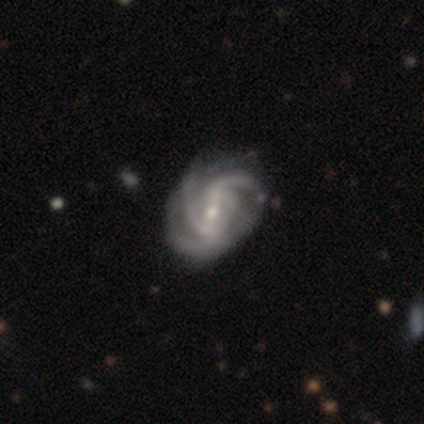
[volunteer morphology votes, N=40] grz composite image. It shows a featured or disk galaxy (95%) with a weak bar (50%), 3 (61%) tight (50%) spiral arms (100%) and a moderate central bulge (47%). Merging: none (42%).